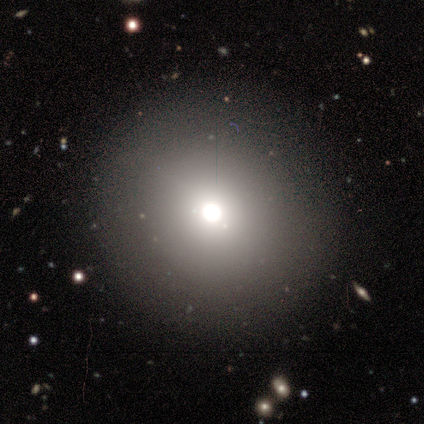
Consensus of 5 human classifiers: Morphology: type=smooth (80%); roundness=round (100%); merging=none (100%).